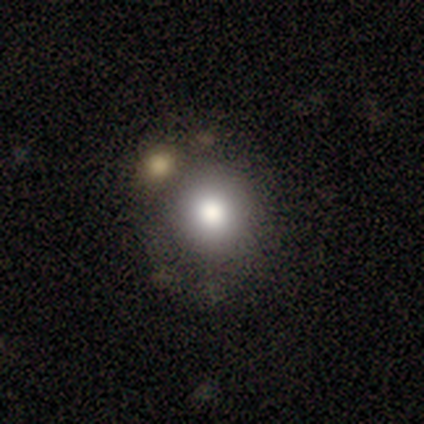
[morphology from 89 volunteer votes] Smooth or featured? smooth (82%)
How rounded? round (92%)
Merging? none (60%)